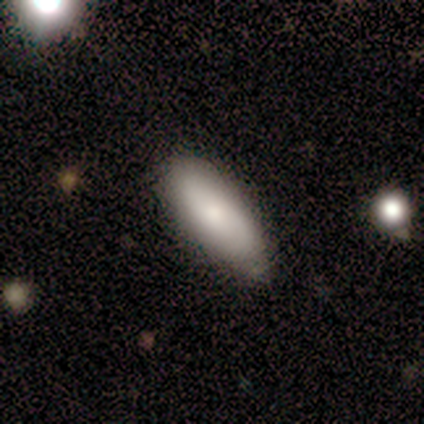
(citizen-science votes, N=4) Smooth or featured: smooth — 100%
How rounded: in between — 75% (cigar-shaped — 25%)
Merging: none — 50% (tied with minor disturbance — 50%)